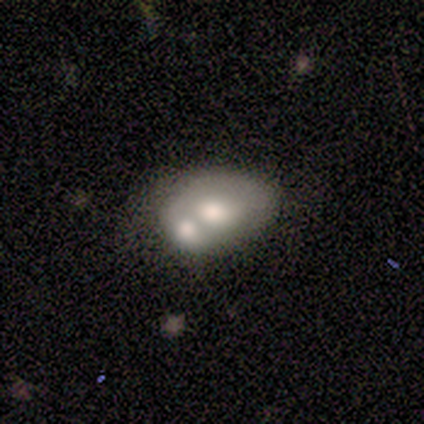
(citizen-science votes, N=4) smooth-or-featured: smooth: 50% (tied) | featured or disk: 50% (tied) | star or artifact: 0%
  how-rounded: in between: 100% | round: 0% | cigar-shaped: 0%
  merging: merger: 100% | none: 0% | minor disturbance: 0% | major disturbance: 0%